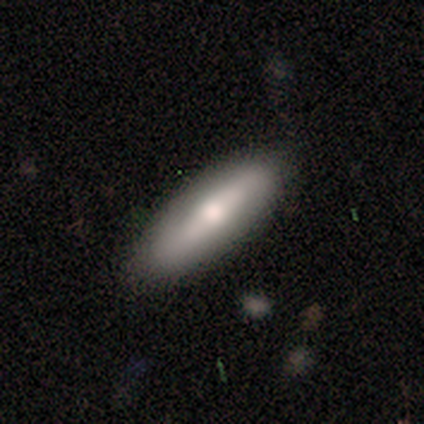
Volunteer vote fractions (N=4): Smooth or featured? 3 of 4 (75%) said featured or disk. Edge-on disk? 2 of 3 (67%) said yes. Edge-on bulge? 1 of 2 (50%, tied with rounded) said boxy. Merging? 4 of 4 (100%) said none.